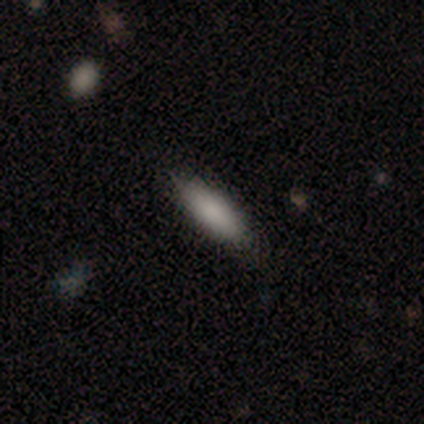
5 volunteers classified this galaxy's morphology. Smooth or featured? 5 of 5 (100%) said smooth. How rounded? 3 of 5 (60%) said cigar-shaped. Merging? 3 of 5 (60%) said none.